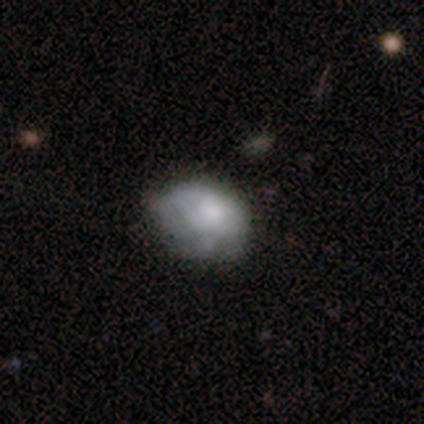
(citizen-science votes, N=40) This appears to be a smooth galaxy with no disk features (57%) that is in between round and cigar-shaped (87%). Merging: none (42%).